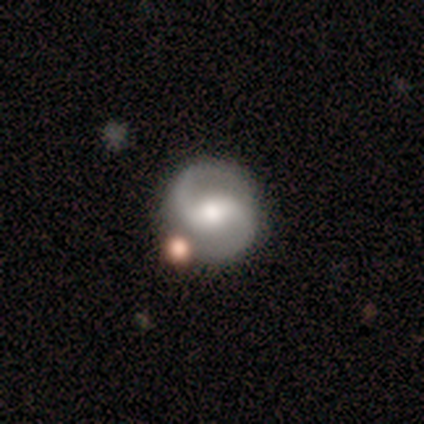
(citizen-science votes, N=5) This is likely a featured or disk galaxy (60%). It is clearly not viewed edge-on (100%). Bar: marginally strong (33%, tied with weak and no). Spiral arm pattern: clearly yes (100%). Spiral arm count: clearly 2 (100%). Spiral winding: likely loose (67%). Central bulge: clearly moderate (100%). Merging: likely none (60%).